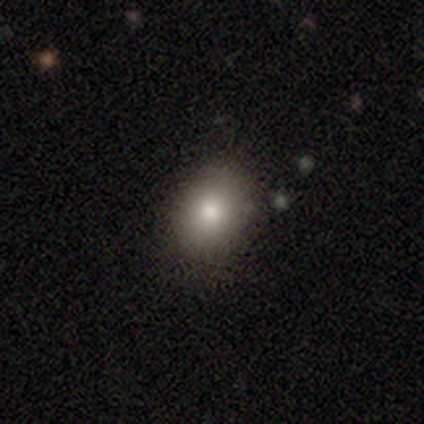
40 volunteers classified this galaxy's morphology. A smooth galaxy with no disk features (85%) that is in between round and cigar-shaped (65%). Merging: none (92%).